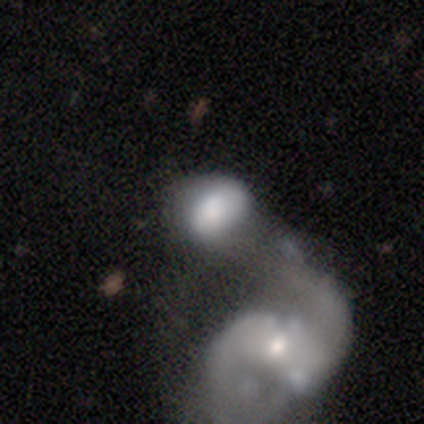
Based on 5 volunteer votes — Volunteers were most divided on "smooth or featured" (2-way tie): smooth: 40%, star or artifact: 40%, featured or disk: 20%; "how rounded" (2-way tie): round: 50%, in between: 50%, cigar-shaped: 0%. More confident: merging — merger (67%).